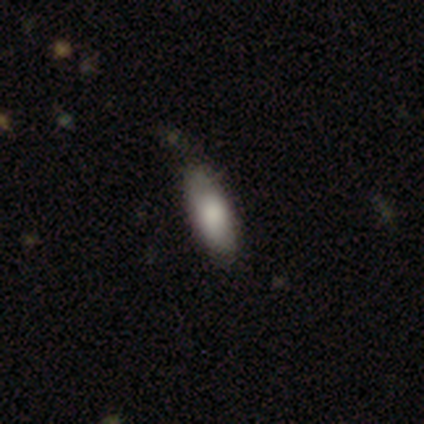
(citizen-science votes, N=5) Q: Smooth or featured?
A: smooth (80%); runner-up: star or artifact (20%)
Q: How rounded?
A: in between (50%); tied with: cigar-shaped (50%)
Q: Merging?
A: none (100%)